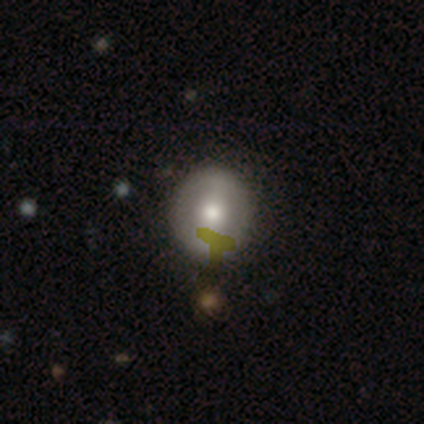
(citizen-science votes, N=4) smooth_or_featured: smooth (p=0.50) [tied with: featured or disk p=0.50]
how_rounded: round (p=1.00)
merging: none (p=0.50) [tied with: minor disturbance p=0.50]